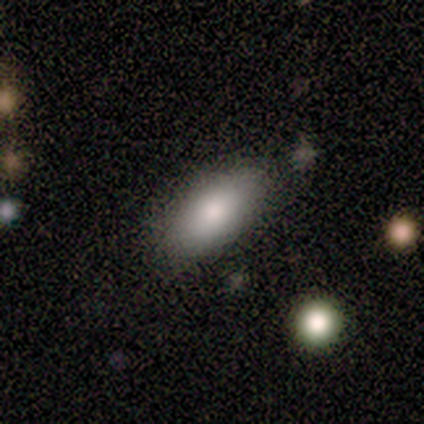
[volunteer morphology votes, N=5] Smooth or featured?
  - smooth: 100% *
  - featured or disk: 0%
  - star or artifact: 0%
How rounded?
  - in between: 100% *
  - round: 0%
  - cigar-shaped: 0%
Merging?
  - none: 60% *
  - merger: 40%
  - minor disturbance: 0%
  - major disturbance: 0%